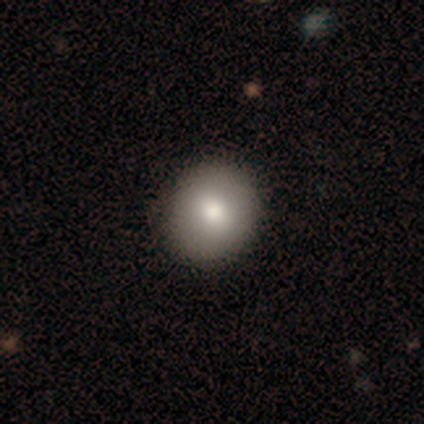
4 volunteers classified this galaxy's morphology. Smooth or featured? 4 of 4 (100%) said smooth. How rounded? 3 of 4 (75%) said round. Merging? 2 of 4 (50%, tied with minor disturbance) said none.